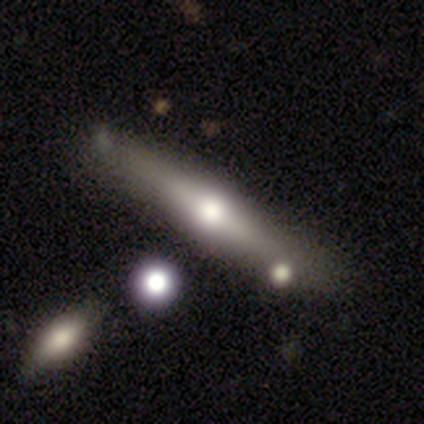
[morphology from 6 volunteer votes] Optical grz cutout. It shows a featured or disk galaxy (67%) viewed edge-on (75%) with a rounded central bulge (100%). Merging: none (40%, tied with minor disturbance).